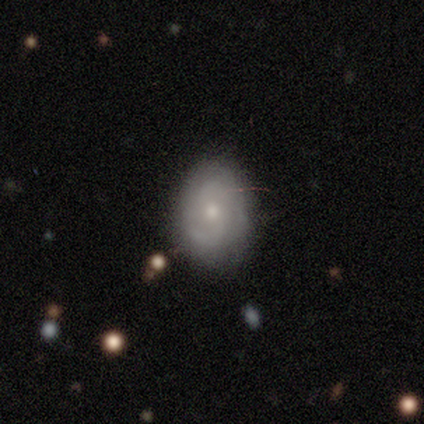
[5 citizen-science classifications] Q: Smooth or featured?
A: featured or disk (100%)
Q: Edge-on disk?
A: no (100%)
Q: Bar?
A: no (60%); runner-up: weak (40%)
Q: Spiral arms?
A: yes (100%)
Q: Spiral winding?
A: tight (40%); tied with: medium (40%)
Q: Spiral arm count?
A: 2 (80%); runner-up: can't tell (20%)
Q: Bulge size?
A: moderate (60%); runner-up: small (40%)
Q: Merging?
A: none (80%); runner-up: major disturbance (20%)